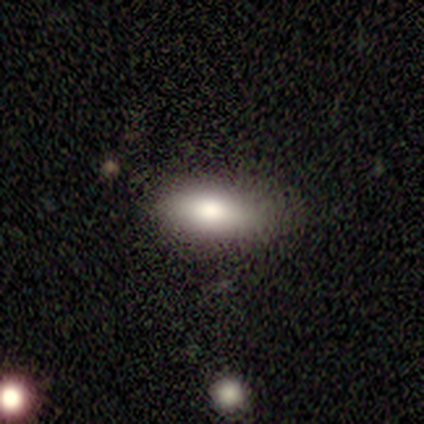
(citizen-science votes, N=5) Smooth or featured? smooth (100%)
How rounded? in between (100%)
Merging? none (100%)